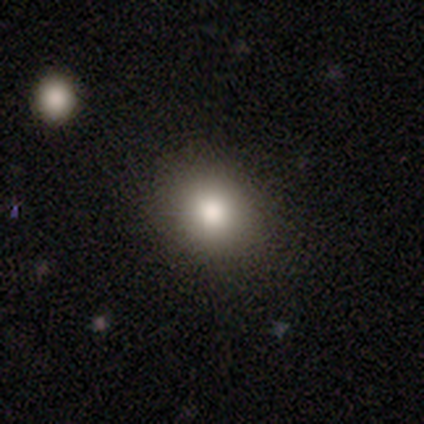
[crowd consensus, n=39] This appears to be a smooth galaxy with no disk features (90%) that is round (69%). Merging: none (67%).